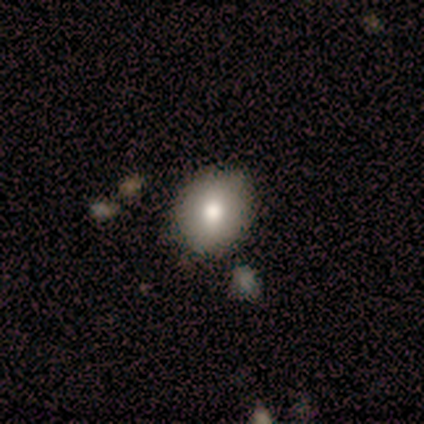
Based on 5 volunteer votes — A smooth galaxy with no disk features (80%) that is round (75%).

Vote fractions:
- Smooth or featured? smooth: 80% / featured or disk: 20% / star or artifact: 0%
- How rounded? round: 75% / in between: 25% / cigar-shaped: 0%
- Merging? minor disturbance: 80% / none: 20% / major disturbance: 0% / merger: 0%